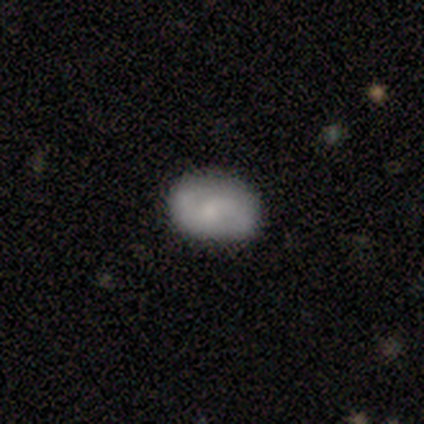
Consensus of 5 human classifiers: smooth-or-featured: featured or disk: 60% | smooth: 40% | star or artifact: 0%
  disk-edge-on: no: 100% | yes: 0%
    bar: no: 100% | strong: 0% | weak: 0%
    has-spiral-arms: yes: 100% | no: 0%
      spiral-winding: loose: 67% | medium: 33% | tight: 0%
      spiral-arm-count: 2: 100% | 1: 0% | 3: 0% | 4: 0% | more than 4: 0% | can't tell: 0%
    bulge-size: small: 67% | moderate: 33% | dominant: 0% | large: 0% | none: 0%
  merging: minor disturbance: 60% | none: 40% | major disturbance: 0% | merger: 0%